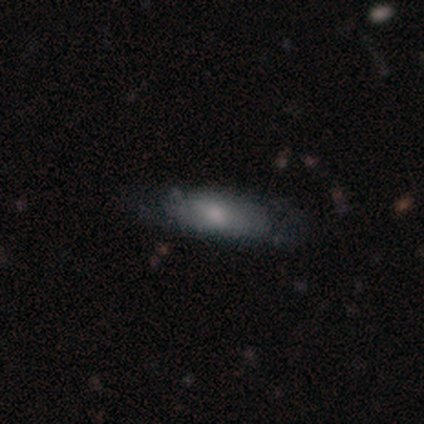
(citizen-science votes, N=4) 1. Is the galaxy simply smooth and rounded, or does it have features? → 75% smooth, 25% featured or disk, 0% star or artifact.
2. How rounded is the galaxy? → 67% cigar-shaped, 33% in between, 0% round.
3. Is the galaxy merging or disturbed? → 50% minor disturbance, 25% none, 25% merger, 0% major disturbance.